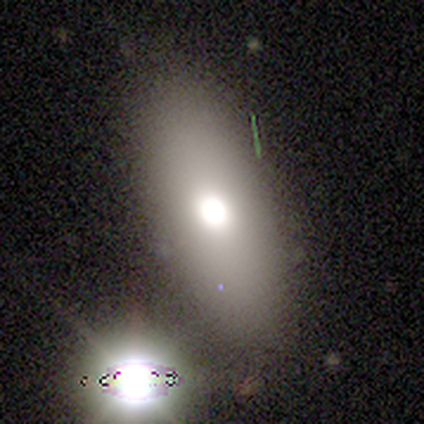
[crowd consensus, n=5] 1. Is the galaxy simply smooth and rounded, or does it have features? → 80% smooth, 20% star or artifact, 0% featured or disk.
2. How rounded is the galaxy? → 75% in between, 25% cigar-shaped, 0% round.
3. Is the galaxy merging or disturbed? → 50% none, 25% minor disturbance, 25% major disturbance, 0% merger.